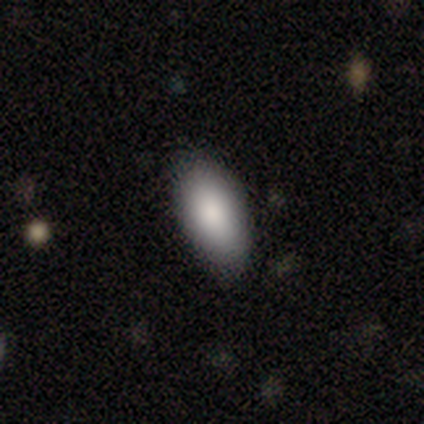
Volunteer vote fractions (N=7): Morphology: type=smooth (86%); roundness=in between (100%); merging=none (67%).